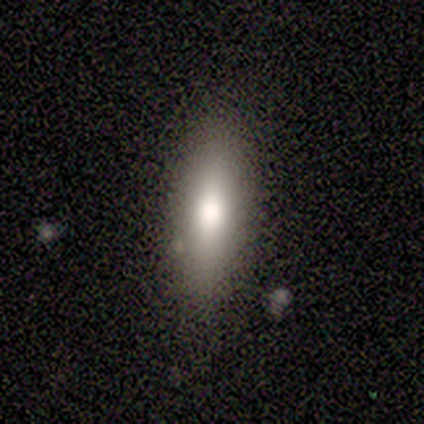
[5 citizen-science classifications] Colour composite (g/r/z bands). It shows a smooth galaxy with no disk features (80%) that is in between round and cigar-shaped (100%). Merging: none (100%).